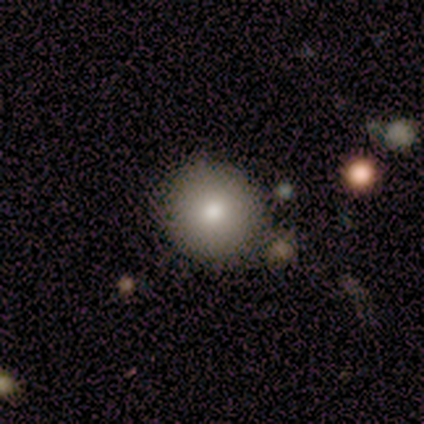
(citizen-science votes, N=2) A smooth galaxy with no disk features (100%) that is round (100%). Merging: none (50%, tied with minor disturbance).